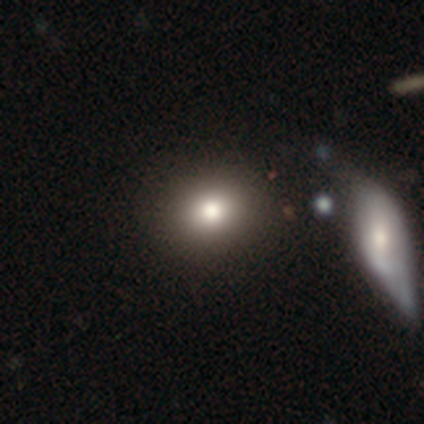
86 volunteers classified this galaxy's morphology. This appears to be a smooth galaxy with no disk features (73%) that is round (60%). Merging: none (78%).